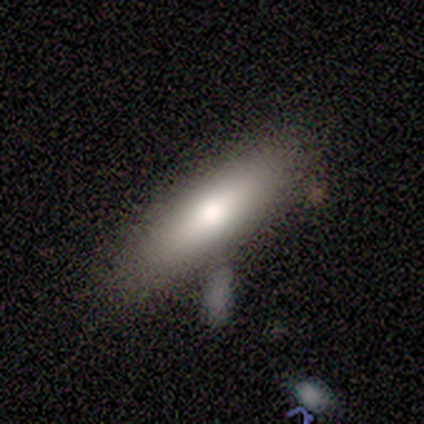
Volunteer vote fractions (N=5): Volunteers were most divided on "edge-on disk" (2-way tie): yes: 50%, no: 50%. More confident: edge-on bulge — rounded (100%); smooth or featured — featured or disk (80%); merging — none (60%).